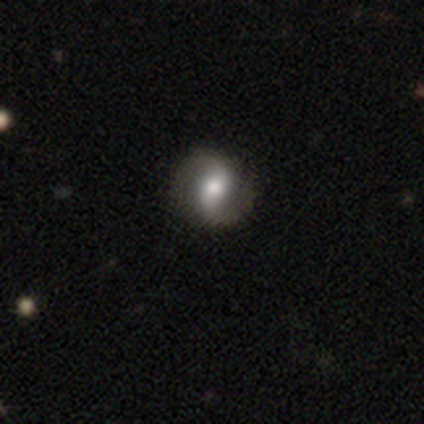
Smooth or featured: featured or disk — 88% (smooth — 12%)
Edge-on disk: no — 100%
Bar: strong — 43% (tied with weak — 43%)
Spiral arms: yes — 100%
Spiral winding: tight — 43% (medium — 29%)
Spiral arm count: 2 — 100%
Bulge size: moderate — 86% (small — 14%)
Merging: none — 88% (minor disturbance — 12%)